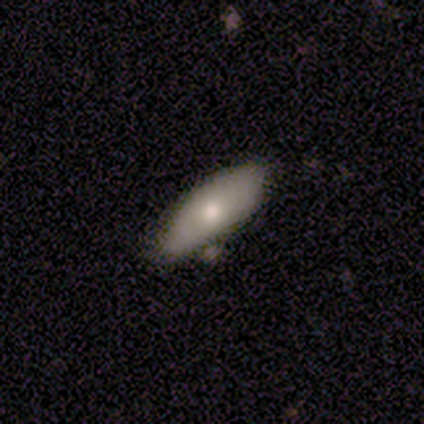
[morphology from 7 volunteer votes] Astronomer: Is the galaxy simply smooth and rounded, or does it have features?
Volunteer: smooth — 57% (runner-up: featured or disk, 43%).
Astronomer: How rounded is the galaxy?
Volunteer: in between — 100%.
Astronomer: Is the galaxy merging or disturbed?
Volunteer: none — 43%, tied with minor disturbance at 43%.